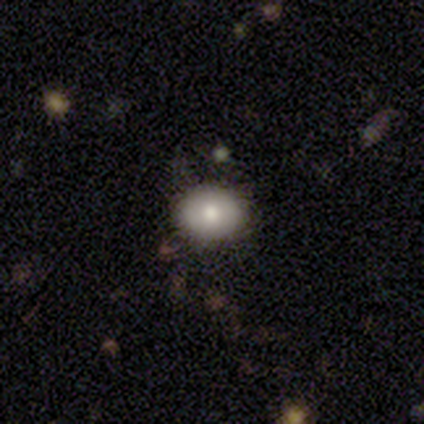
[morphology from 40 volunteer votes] A smooth galaxy with no disk features (78%) that is round (71%).

Vote fractions:
- Smooth or featured? smooth: 78% / featured or disk: 18% / star or artifact: 5%
- How rounded? round: 71% / in between: 29% / cigar-shaped: 0%
- Merging? none: 89% / minor disturbance: 5% / major disturbance: 3% / merger: 3%